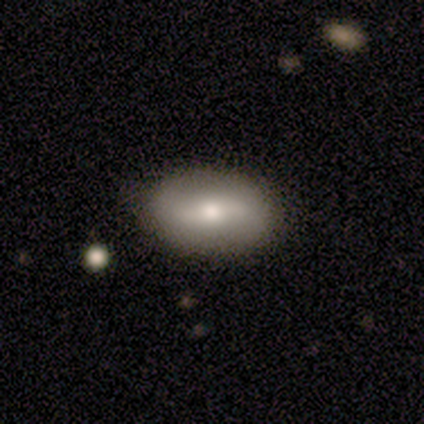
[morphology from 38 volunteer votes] Smooth or featured? 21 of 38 (55%) said featured or disk. Edge-on disk? 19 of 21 (90%) said no. Bar? 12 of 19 (63%) said weak. Spiral arms? 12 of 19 (63%) said no. Bulge size? 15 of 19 (79%) said moderate. Merging? 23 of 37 (62%) said none.